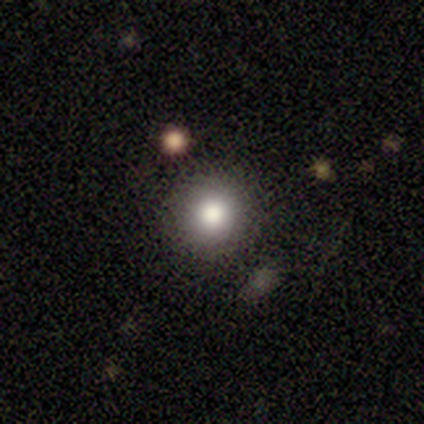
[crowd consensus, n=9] Smooth or featured: smooth — 78% (featured or disk — 22%)
How rounded: round — 100%
Merging: none — 89% (major disturbance — 11%)